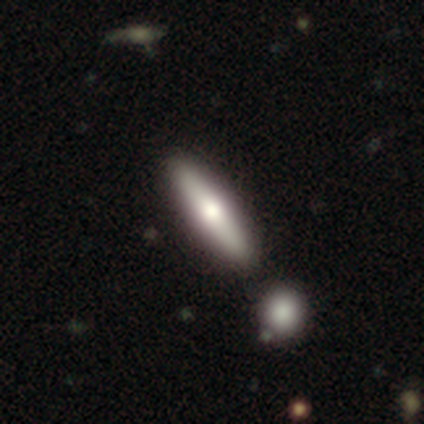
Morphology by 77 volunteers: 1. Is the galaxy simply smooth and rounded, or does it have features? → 58% smooth, 40% featured or disk, 1% star or artifact.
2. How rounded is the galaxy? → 84% cigar-shaped, 16% in between, 0% round.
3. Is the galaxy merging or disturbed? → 39% none, 16% merger, 5% minor disturbance, 0% major disturbance.